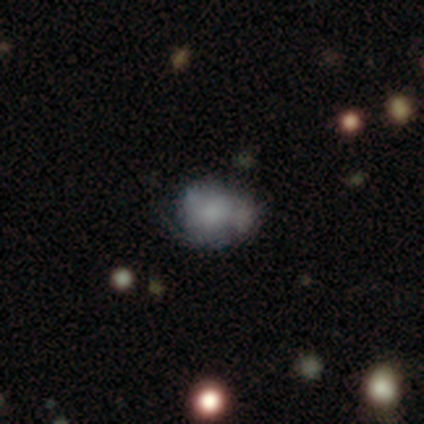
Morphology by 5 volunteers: Q: Smooth or featured?
A: smooth (60%); runner-up: featured or disk (20%)
Q: How rounded?
A: round (67%); runner-up: in between (33%)
Q: Merging?
A: major disturbance (50%); runner-up: none (25%)